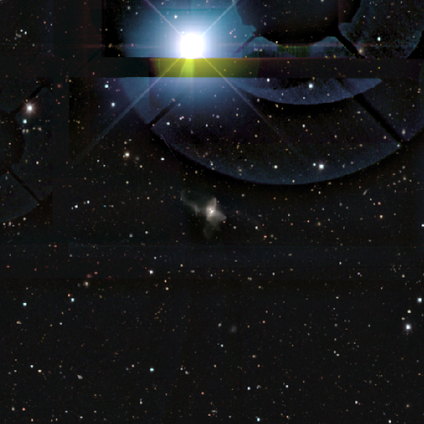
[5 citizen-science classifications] Volunteers were most divided on "smooth or featured": star or artifact: 60%, featured or disk: 40%, smooth: 0%.